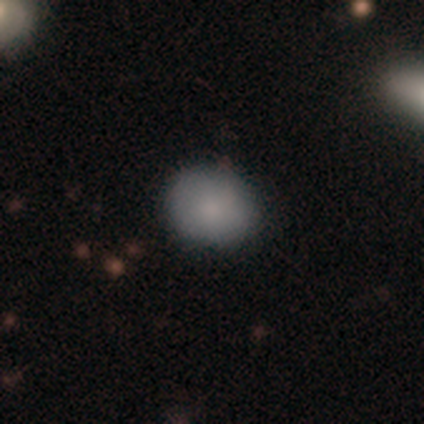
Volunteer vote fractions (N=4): Smooth or featured? 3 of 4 (75%) said smooth. How rounded? 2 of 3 (67%) said round. Merging? 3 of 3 (100%) said none.